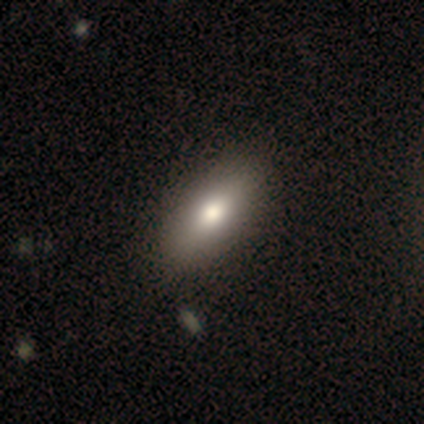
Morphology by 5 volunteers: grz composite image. It shows a smooth galaxy with no disk features (60%) that is in between round and cigar-shaped (67%). Merging: none (100%).